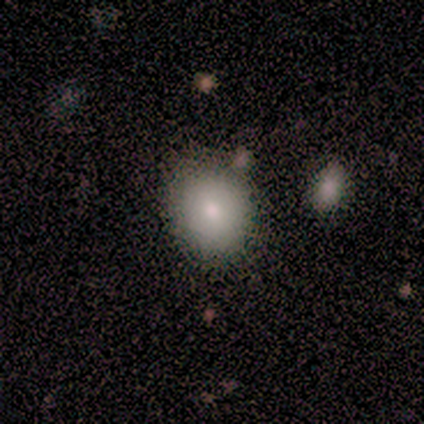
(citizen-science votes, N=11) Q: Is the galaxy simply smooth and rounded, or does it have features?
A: smooth — 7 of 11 (64%).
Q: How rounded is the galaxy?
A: in between — 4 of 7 (57%).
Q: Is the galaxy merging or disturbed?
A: none — 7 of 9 (78%).